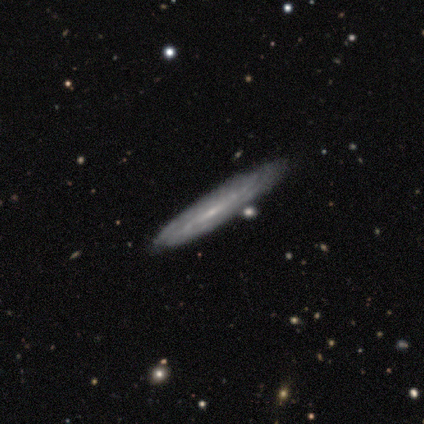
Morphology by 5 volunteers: A featured or disk galaxy (80%) viewed edge-on (75%) with a rounded central bulge (67%). Merging: minor disturbance (80%).